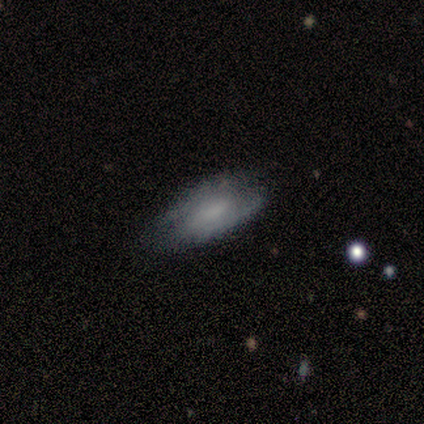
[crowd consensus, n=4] Q: Smooth or featured?
A: smooth (50%); tied with: featured or disk (50%)
Q: How rounded?
A: in between (50%); tied with: cigar-shaped (50%)
Q: Merging?
A: minor disturbance (50%); runner-up: none (25%)